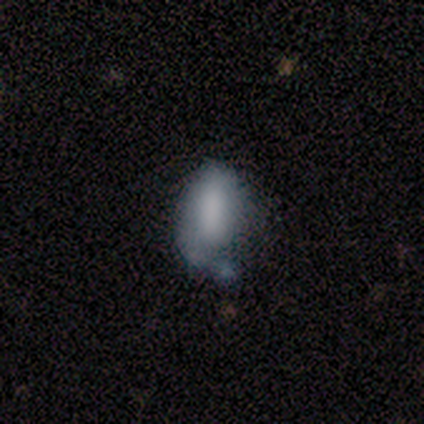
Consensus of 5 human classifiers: smooth_or_featured: smooth (p=1.00)
how_rounded: in between (p=1.00)
merging: none (p=0.40) [alt: minor disturbance p=0.20]